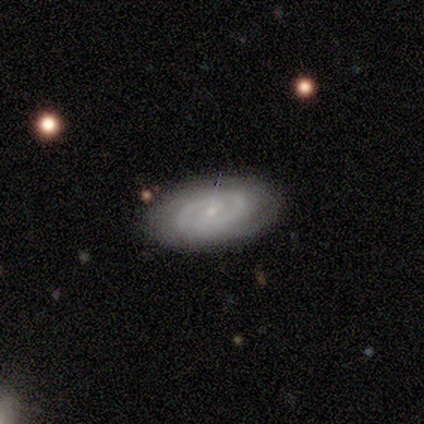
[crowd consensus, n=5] This is clearly a featured or disk galaxy (80%). It is clearly not viewed edge-on (100%). Bar: possibly no (50%). Spiral arm pattern: clearly yes (100%). Spiral arm count: likely 2 (75%). Spiral winding: likely tight (75%). Central bulge: likely small (75%). Merging: clearly none (80%).